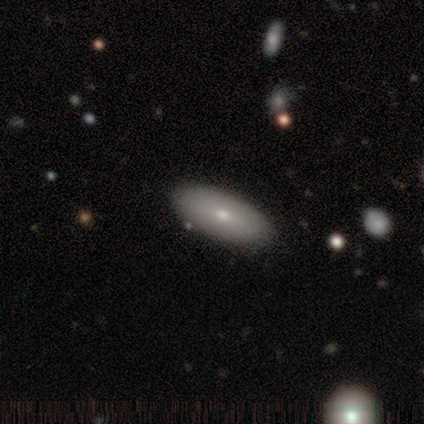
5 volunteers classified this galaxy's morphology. Smooth or featured? featured or disk (60%)
Edge-on disk? no (100%)
Bar? weak (67%)
Spiral arms? no (67%)
Bulge size? small (67%)
Merging? none (60%)